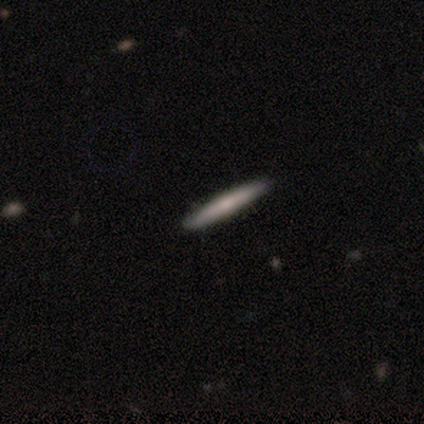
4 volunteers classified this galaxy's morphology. smooth_or_featured: smooth (p=0.50) [alt: featured or disk p=0.25]
how_rounded: cigar-shaped (p=1.00)
merging: none (p=1.00)